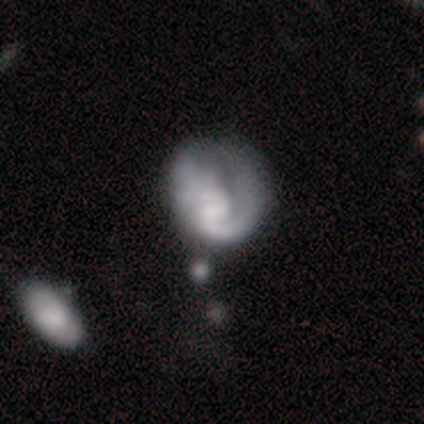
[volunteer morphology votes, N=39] Smooth or featured: featured or disk — 62% (smooth — 33%)
Edge-on disk: no — 96% (yes — 4%)
Bar: no — 52% (weak — 43%)
Spiral arms: yes — 87% (no — 13%)
Spiral winding: medium — 40% (loose — 35%)
Spiral arm count: 2 — 60% (1 — 20%)
Bulge size: small — 48% (moderate — 22%)
Merging: minor disturbance — 35% (major disturbance — 32%)